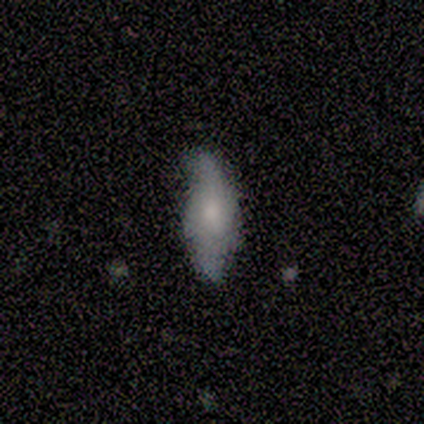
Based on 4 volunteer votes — Volunteers were most divided on "merging": none: 75%, minor disturbance: 25%, major disturbance: 0%, merger: 0%. More confident: smooth or featured — smooth (100%); how rounded — in between (100%).